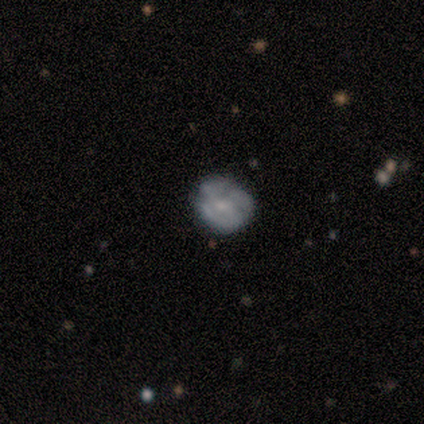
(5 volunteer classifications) This appears to be a featured or disk galaxy (60%) with a weak bar (67%), medium (67%) spiral arms (100%) and a small central bulge (100%). Merging: none (100%).